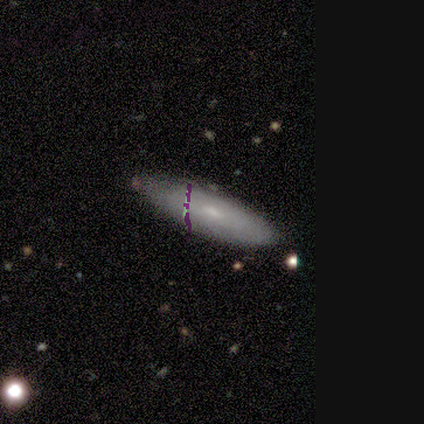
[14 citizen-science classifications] smooth-or-featured: smooth: 50% | featured or disk: 43% | star or artifact: 7%
  how-rounded: cigar-shaped: 57% | in between: 43% | round: 0%
  merging: none: 92% | minor disturbance: 8% | major disturbance: 0% | merger: 0%